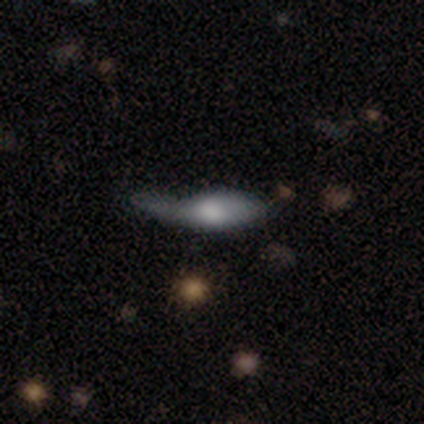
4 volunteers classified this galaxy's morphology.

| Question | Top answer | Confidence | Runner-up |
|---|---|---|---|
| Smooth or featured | smooth | 50% | tied: featured or disk (50%) |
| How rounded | in between | 100% | — |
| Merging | minor disturbance | 75% | none (25%) |